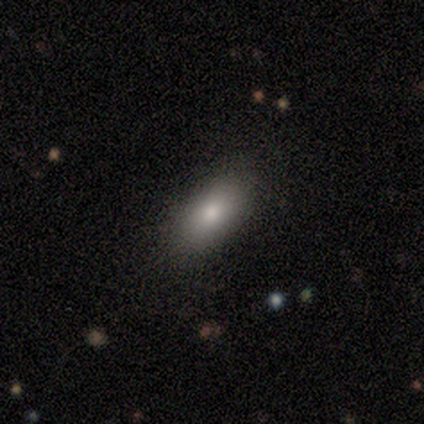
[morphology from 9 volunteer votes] smooth_or_featured: smooth (p=0.78) [alt: featured or disk p=0.11]
how_rounded: in between (p=1.00)
merging: none (p=0.88) [alt: minor disturbance p=0.12]